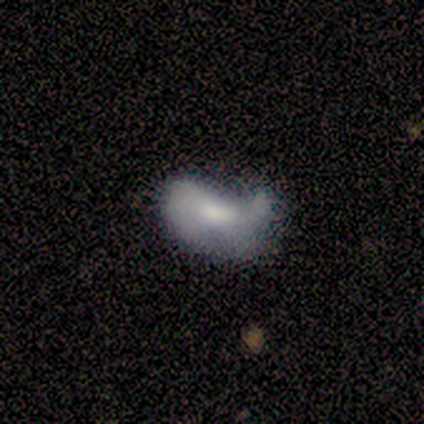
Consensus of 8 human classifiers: Morphology: type=smooth (62%); roundness=in between (100%); merging=minor disturbance (38%, tied with major disturbance).